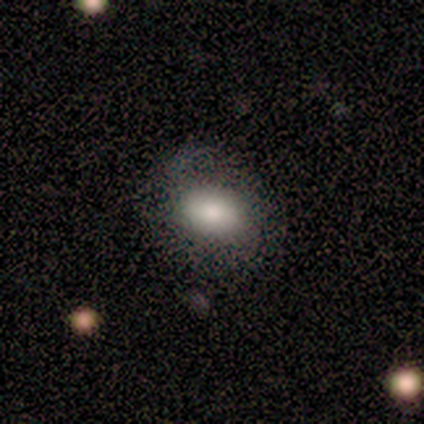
Volunteers were most divided on "edge-on disk" (2-way tie): yes: 50%, no: 50%. More confident: edge-on bulge — rounded (100%); merging — none (100%); smooth or featured — featured or disk (67%).